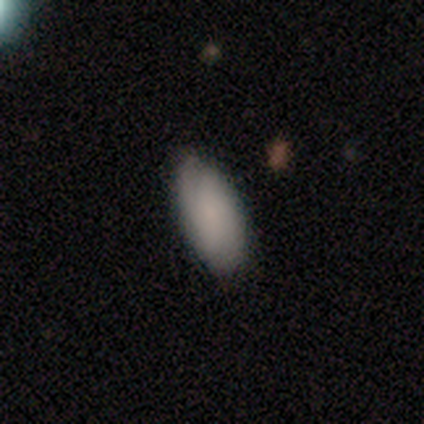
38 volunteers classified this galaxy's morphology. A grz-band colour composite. It shows a smooth galaxy with no disk features (87%) that is in between round and cigar-shaped (97%). Merging: none (89%).